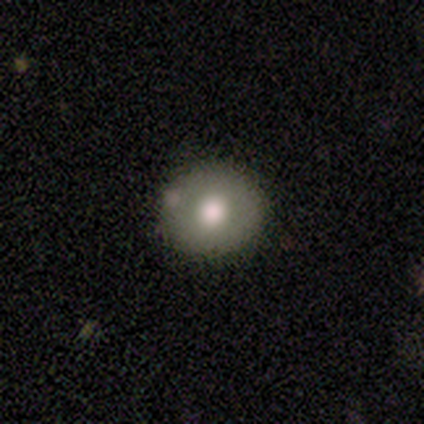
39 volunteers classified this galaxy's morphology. A smooth galaxy with no disk features (72%) that is round (89%). Merging: none (79%).